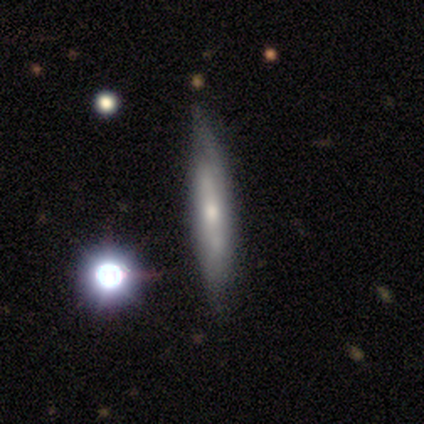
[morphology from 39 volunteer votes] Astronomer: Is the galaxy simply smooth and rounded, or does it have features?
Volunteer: featured or disk — 64%.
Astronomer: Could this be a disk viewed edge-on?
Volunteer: yes — 76%.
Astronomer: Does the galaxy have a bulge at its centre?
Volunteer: none — 42% (runner-up: rounded, 37%).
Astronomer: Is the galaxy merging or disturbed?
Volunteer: none — 66%.